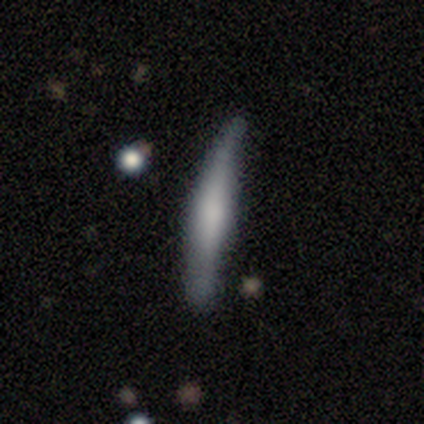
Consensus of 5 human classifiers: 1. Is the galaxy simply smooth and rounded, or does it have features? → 40% smooth (tied), 40% featured or disk (tied), 20% star or artifact.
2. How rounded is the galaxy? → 100% cigar-shaped, 0% round, 0% in between.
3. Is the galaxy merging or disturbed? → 75% minor disturbance, 25% none, 0% major disturbance, 0% merger.